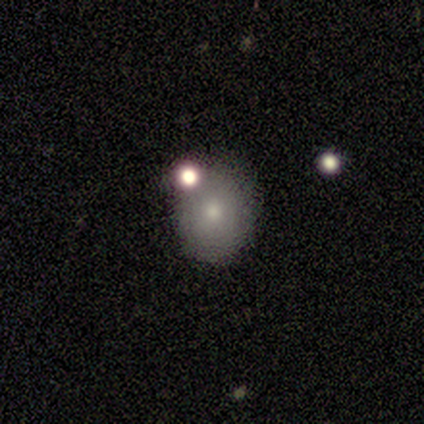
Smooth or featured? 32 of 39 (82%) said smooth. How rounded? 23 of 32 (72%) said round. Merging? 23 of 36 (64%) said none.